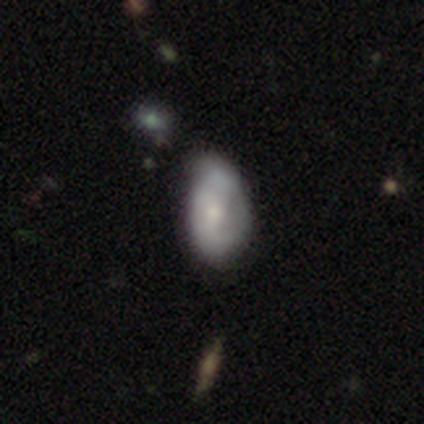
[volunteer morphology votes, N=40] A smooth galaxy with no disk features (52%) that is in between round and cigar-shaped (95%).

Vote fractions:
- Smooth or featured? smooth: 52% / featured or disk: 45% / star or artifact: 2%
- How rounded? in between: 95% / round: 5% / cigar-shaped: 0%
- Merging? minor disturbance: 54% / none: 10% / major disturbance: 8% / merger: 5%